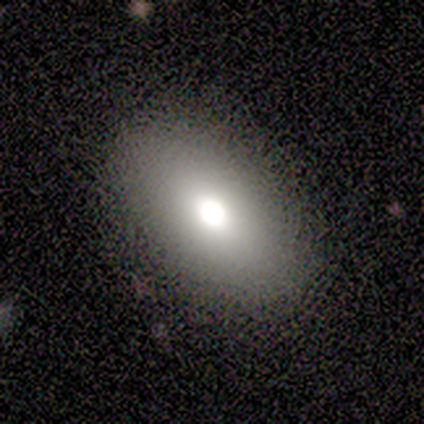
Smooth or featured? 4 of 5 (80%) said smooth. How rounded? 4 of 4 (100%) said in between. Merging? 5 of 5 (100%) said none.